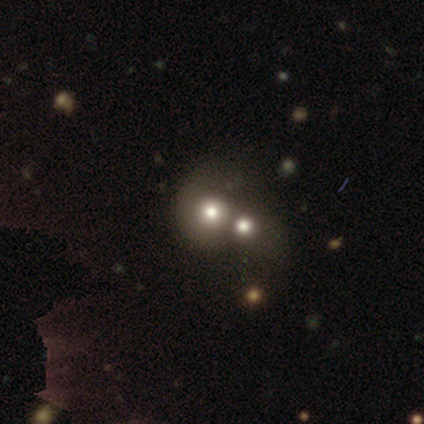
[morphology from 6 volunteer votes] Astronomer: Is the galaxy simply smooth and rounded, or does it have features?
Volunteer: smooth — 50% (runner-up: star or artifact, 33%).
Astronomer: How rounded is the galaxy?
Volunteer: round — 100%.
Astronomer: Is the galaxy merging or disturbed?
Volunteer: merger — 100%.